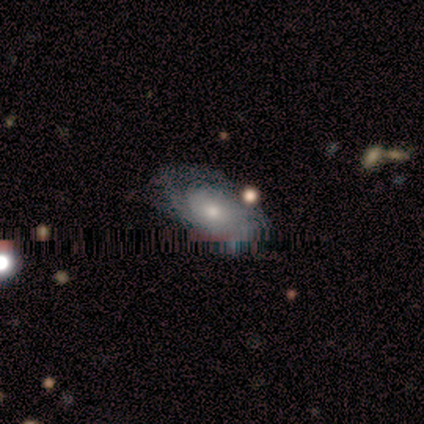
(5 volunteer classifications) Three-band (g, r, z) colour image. It shows a featured or disk galaxy (100%) with no bar (100%), tight (67%) spiral arms (75%) and a small central bulge (75%). Merging: none (100%).